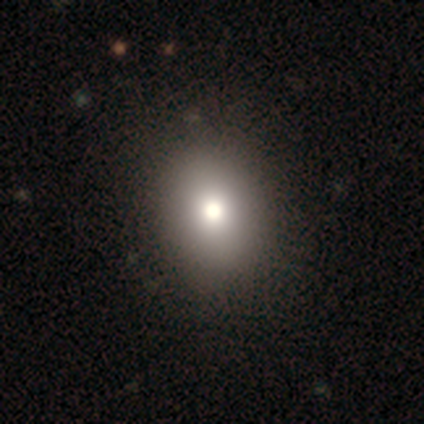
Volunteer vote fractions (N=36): smooth 92%, featured or disk 6%, star or artifact 3%. Down the decision tree: how rounded — in between (70%); merging — none (66%).